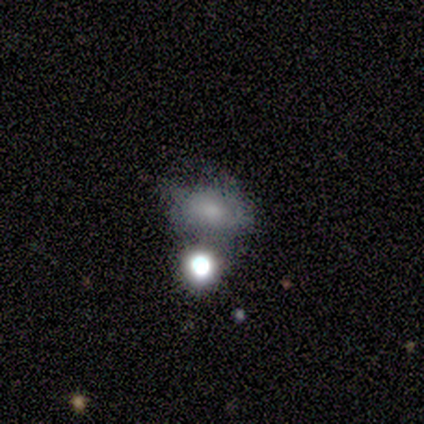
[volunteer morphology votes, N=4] Q: Smooth or featured?
A: smooth (50%); tied with: featured or disk (50%)
Q: How rounded?
A: round (50%); tied with: in between (50%)
Q: Merging?
A: merger (50%); runner-up: none (25%)